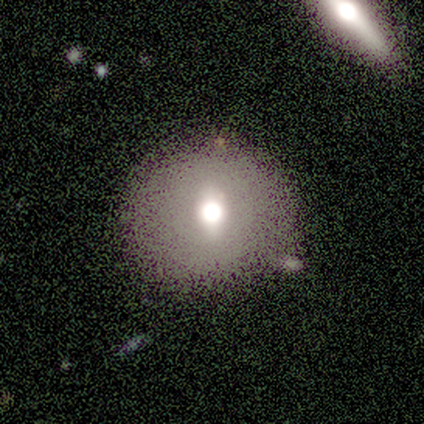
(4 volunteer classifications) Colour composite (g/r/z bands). It shows a featured or disk galaxy (50%) with no bar (100%), no spiral arms (100%) and a dominant central bulge (50%, tied with moderate). Merging: none (100%).